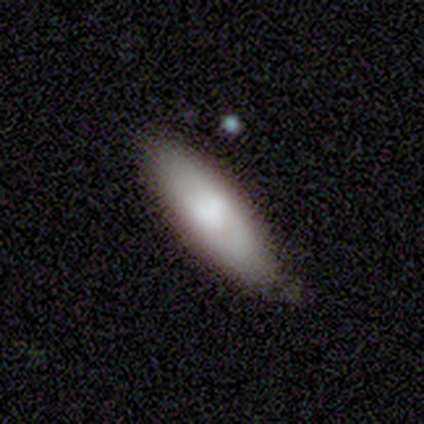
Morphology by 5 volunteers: Overall: smooth (100%). How rounded: in between (60%; cigar-shaped 40%). Merging: none (80%).